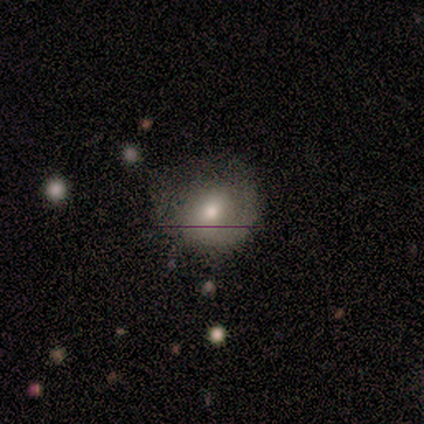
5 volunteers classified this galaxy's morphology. Volunteers were most divided on "merging" (2-way tie): minor disturbance: 40%, major disturbance: 40%, none: 20%, merger: 0%. More confident: edge-on disk — no (100%); spiral arms — no (100%); bar — no (67%); bulge size — moderate (67%); smooth or featured — featured or disk (60%).